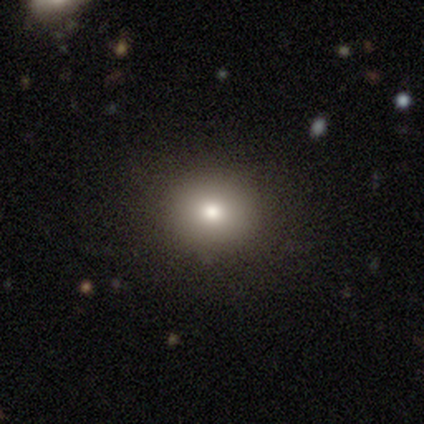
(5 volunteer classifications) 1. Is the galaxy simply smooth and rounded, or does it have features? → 80% smooth, 20% featured or disk, 0% star or artifact.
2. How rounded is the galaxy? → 100% round, 0% in between, 0% cigar-shaped.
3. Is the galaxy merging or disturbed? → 80% none, 20% minor disturbance, 0% major disturbance, 0% merger.